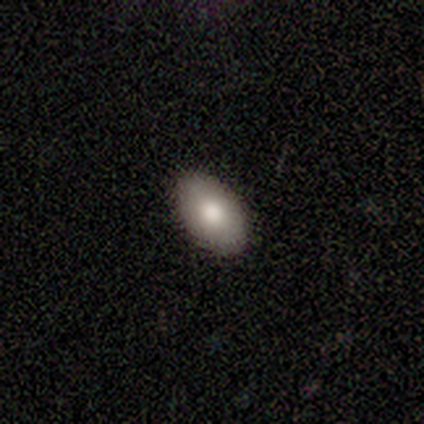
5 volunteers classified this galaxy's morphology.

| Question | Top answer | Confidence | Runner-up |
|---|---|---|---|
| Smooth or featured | smooth | 100% | — |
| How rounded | in between | 100% | — |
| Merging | none | 100% | — |